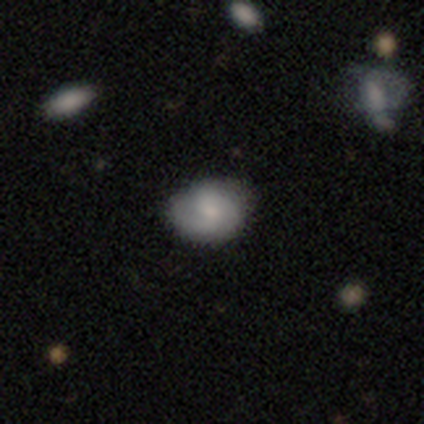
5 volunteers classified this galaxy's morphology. type=featured or disk (60%); edge-on=no (100%); bar=weak (100%); spiral arms=yes (100%); winding=medium (67%); arm count=2 (33%, tied with 3 and can't tell); bulge=moderate (100%); merging=none (60%).